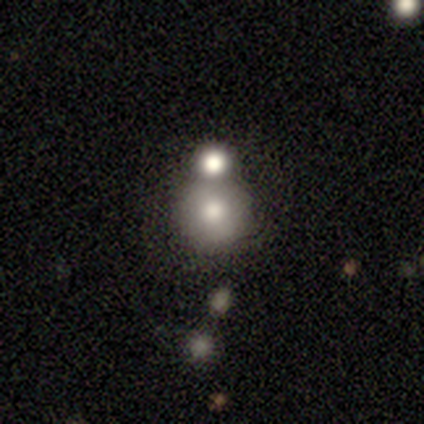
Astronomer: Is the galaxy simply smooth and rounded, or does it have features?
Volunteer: smooth — 83%.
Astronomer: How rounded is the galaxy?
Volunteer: round — 80%.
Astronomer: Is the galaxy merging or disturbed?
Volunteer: none — 67%.